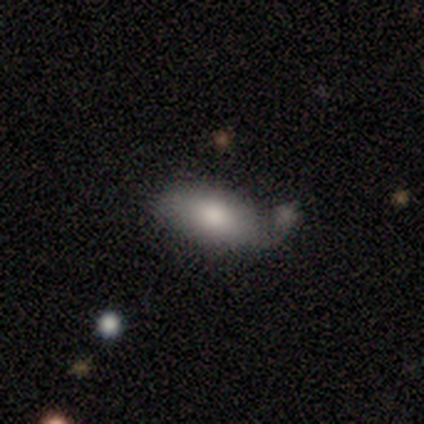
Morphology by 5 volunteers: smooth_or_featured: smooth (p=1.00)
how_rounded: in between (p=1.00)
merging: minor disturbance (p=0.80) [alt: none p=0.20]